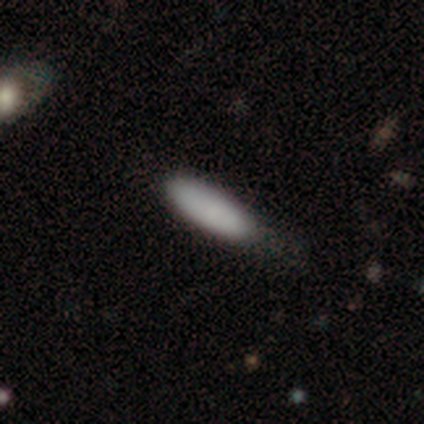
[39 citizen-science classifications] Morphology: type=smooth (87%); roundness=cigar-shaped (59%); merging=none (53%).